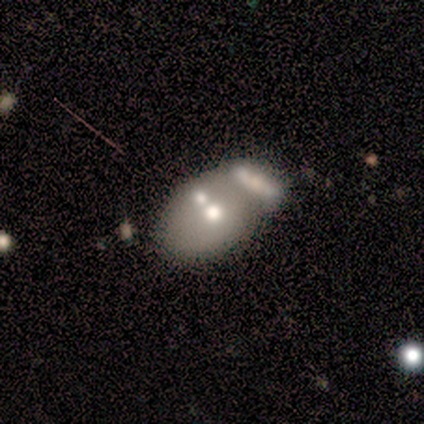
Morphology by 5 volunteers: Smooth or featured: featured or disk — 60% (smooth — 40%)
Edge-on disk: no — 100%
Bar: no — 100%
Spiral arms: no — 100%
Bulge size: large — 33% (tied with moderate — 33%; small — 33%)
Merging: merger — 60% (none — 20%)